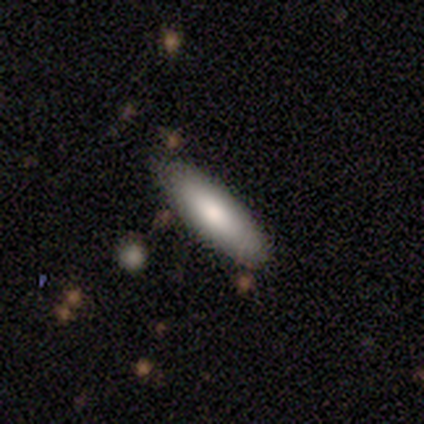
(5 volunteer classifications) Overall: featured or disk (80%). Edge-on disk: yes (50%, tied with no). Edge-on bulge: none (100%). Merging: none (100%).